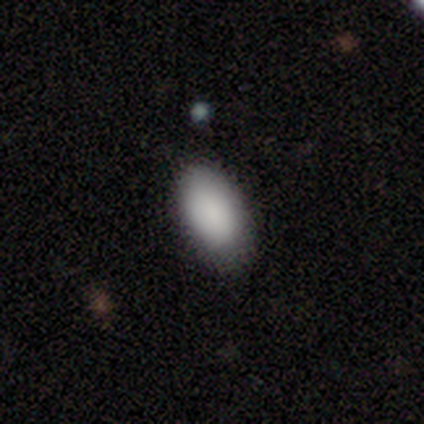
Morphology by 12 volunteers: smooth 92%, featured or disk 8%, star or artifact 0%. Down the decision tree: how rounded — in between (82%); merging — none (92%).